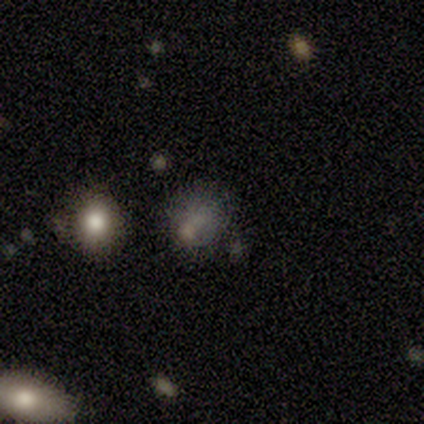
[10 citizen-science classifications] Smooth or featured? 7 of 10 (70%) said smooth. How rounded? 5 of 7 (71%) said round. Merging? 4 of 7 (57%) said none.